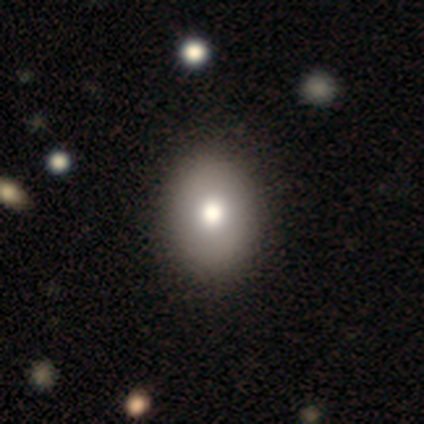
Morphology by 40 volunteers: Smooth or featured?
  - smooth: 82% *
  - featured or disk: 12%
  - star or artifact: 5%
How rounded?
  - in between: 64% *
  - round: 36%
  - cigar-shaped: 0%
Merging?
  - none: 87% *
  - minor disturbance: 11%
  - major disturbance: 3%
  - merger: 0%